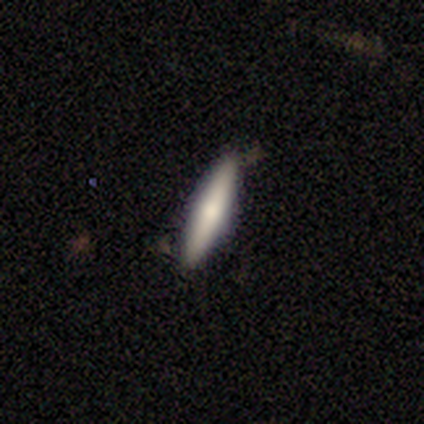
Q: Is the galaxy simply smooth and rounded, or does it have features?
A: smooth — 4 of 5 (80%).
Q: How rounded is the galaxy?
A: cigar-shaped — 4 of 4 (100%).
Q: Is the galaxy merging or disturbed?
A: none — 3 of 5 (60%).